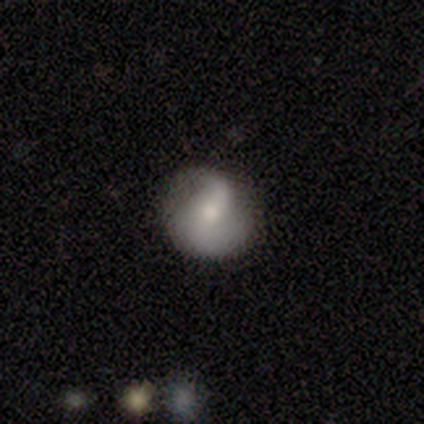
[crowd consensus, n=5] Volunteers were most divided on "merging": none: 60%, minor disturbance: 40%, major disturbance: 0%, merger: 0%. More confident: edge-on disk — no (100%); spiral winding — loose (100%); smooth or featured — featured or disk (80%); spiral arms — yes (75%); spiral arm count — 2 (67%); bar — strong (50%); bulge size — small (50%).